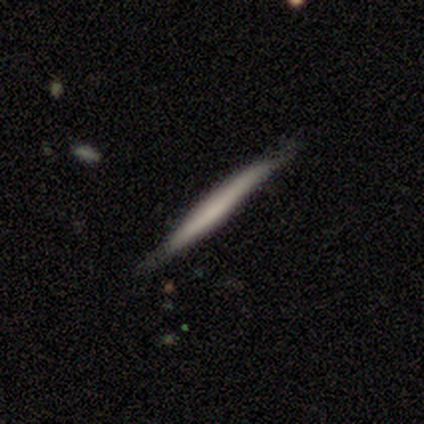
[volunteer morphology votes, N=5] Q: Smooth or featured?
A: smooth (60%); runner-up: star or artifact (40%)
Q: How rounded?
A: cigar-shaped (100%)
Q: Merging?
A: none (100%)